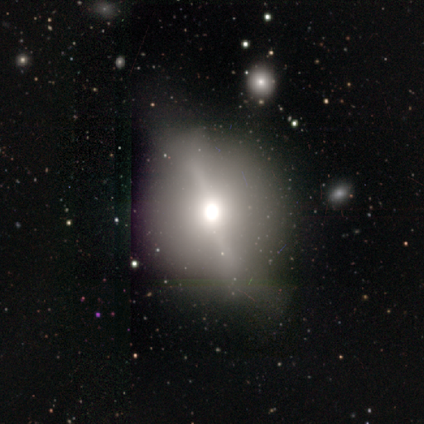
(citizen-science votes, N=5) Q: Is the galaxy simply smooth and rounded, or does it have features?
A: star or artifact — 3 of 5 (60%).